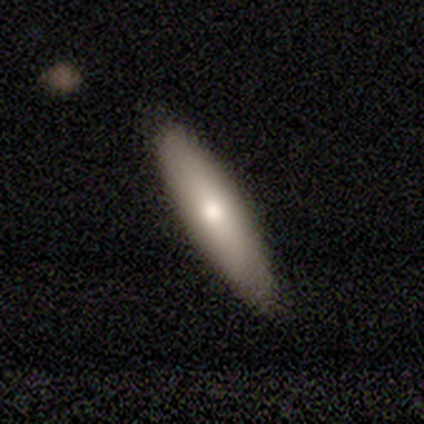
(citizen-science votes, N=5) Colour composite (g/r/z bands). It shows a smooth galaxy with no disk features (100%) that is cigar-shaped (60%). Merging: none (60%).